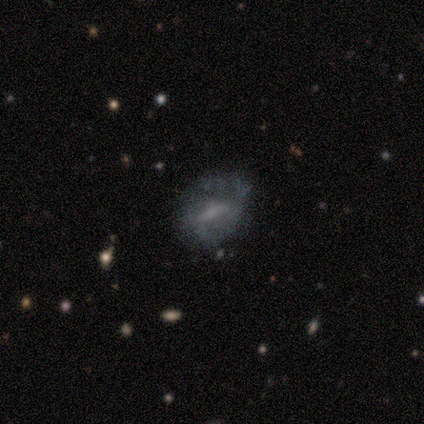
smooth-or-featured: featured or disk: 60% | smooth: 40% | star or artifact: 0%
  disk-edge-on: no: 100% | yes: 0%
    bar: weak: 67% | no: 33% | strong: 0%
    has-spiral-arms: no: 67% | yes: 33%
    bulge-size: large: 33% (tied) | moderate: 33% (tied) | small: 33% (tied) | dominant: 0% | none: 0%
  merging: none: 40% (tied) | minor disturbance: 40% (tied) | major disturbance: 20% | merger: 0%